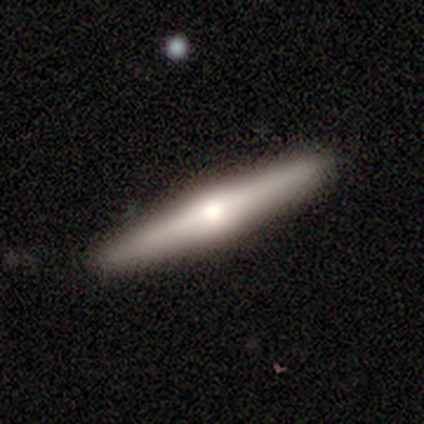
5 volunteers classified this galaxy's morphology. smooth_or_featured: smooth (p=0.60) [alt: featured or disk p=0.40]
how_rounded: cigar-shaped (p=1.00)
merging: none (p=1.00)